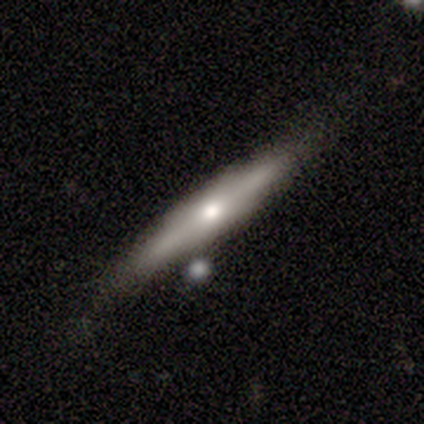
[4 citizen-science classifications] Q: Smooth or featured?
A: smooth (50%); tied with: featured or disk (50%)
Q: How rounded?
A: cigar-shaped (100%)
Q: Merging?
A: none (75%); runner-up: minor disturbance (25%)